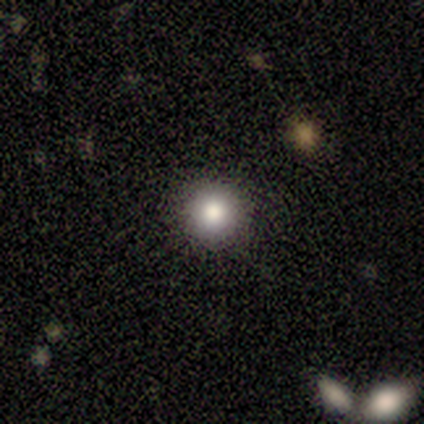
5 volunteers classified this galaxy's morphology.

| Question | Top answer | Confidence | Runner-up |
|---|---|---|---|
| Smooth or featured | smooth | 60% | star or artifact (40%) |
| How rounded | round | 67% | in between (33%) |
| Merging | none | 100% | — |